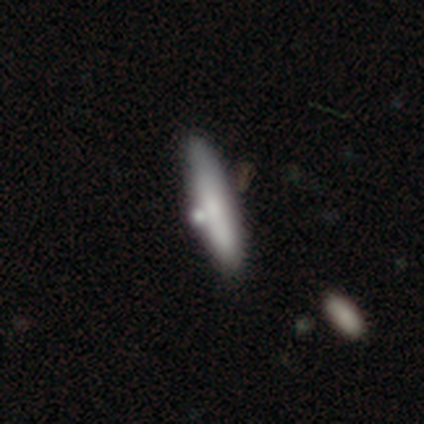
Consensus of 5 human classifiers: Volunteers were most divided on "how rounded": cigar-shaped: 75%, in between: 25%, round: 0%. More confident: smooth or featured — smooth (80%); merging — none (80%).